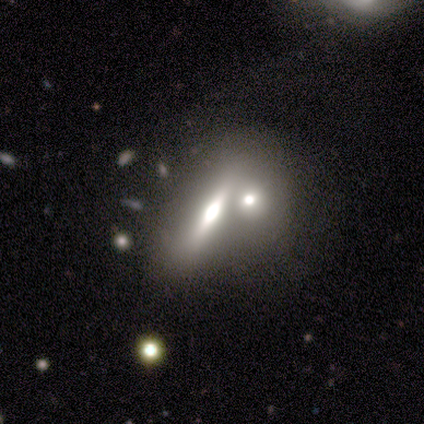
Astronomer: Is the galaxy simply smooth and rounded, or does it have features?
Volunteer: smooth — 40%, tied with star or artifact at 40%.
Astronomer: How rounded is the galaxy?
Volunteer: in between — 50%, tied with cigar-shaped at 50%.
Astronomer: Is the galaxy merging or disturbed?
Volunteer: minor disturbance — 67%.